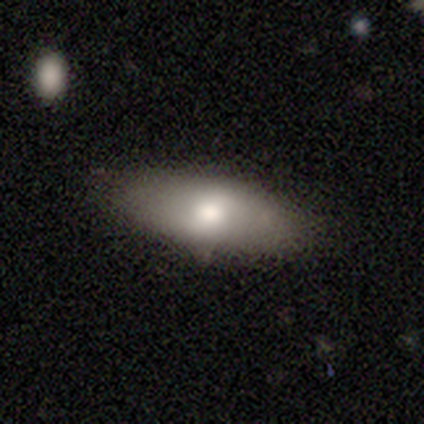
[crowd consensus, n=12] Volunteers were most divided on "how rounded": cigar-shaped: 56%, in between: 33%, round: 11%. More confident: merging — none (91%); smooth or featured — smooth (75%).